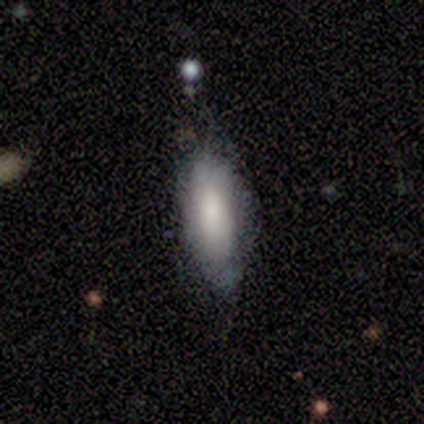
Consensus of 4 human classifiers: smooth_or_featured: smooth (p=1.00)
how_rounded: in between (p=1.00)
merging: minor disturbance (p=0.75) [alt: none p=0.25]